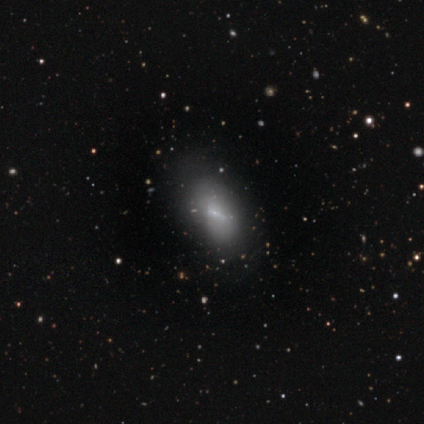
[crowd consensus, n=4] smooth_or_featured: featured or disk (p=0.50) [alt: smooth p=0.25]
disk_edge_on: no (p=1.00)
bar: strong (p=0.50) [tied with: no p=0.50]
has_spiral_arms: no (p=1.00)
bulge_size: small (p=1.00)
merging: none (p=0.33) [tied with: minor disturbance p=0.33, major disturbance p=0.33]